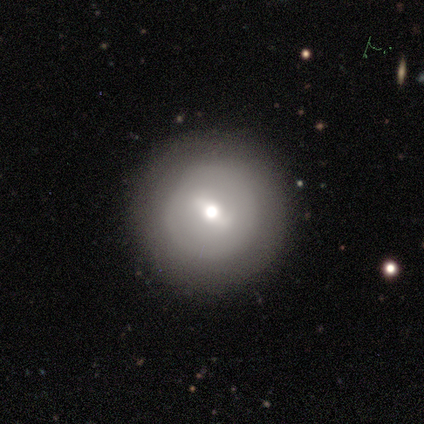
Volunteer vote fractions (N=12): Q: Smooth or featured?
A: featured or disk (58%); runner-up: smooth (33%)
Q: Edge-on disk?
A: no (100%)
Q: Bar?
A: weak (100%)
Q: Spiral arms?
A: no (100%)
Q: Bulge size?
A: moderate (86%); runner-up: small (14%)
Q: Merging?
A: none (73%); runner-up: major disturbance (18%)